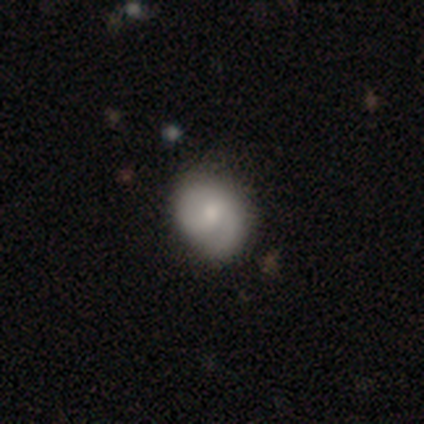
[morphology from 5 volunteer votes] smooth-or-featured: featured or disk: 80% | smooth: 20% | star or artifact: 0%
  disk-edge-on: no: 100% | yes: 0%
    bar: weak: 50% (tied) | no: 50% (tied) | strong: 0%
    has-spiral-arms: yes: 75% | no: 25%
      spiral-winding: tight: 67% | loose: 33% | medium: 0%
      spiral-arm-count: 2: 100% | 1: 0% | 3: 0% | 4: 0% | more than 4: 0% | can't tell: 0%
    bulge-size: moderate: 50% | large: 25% | small: 25% | dominant: 0% | none: 0%
  merging: none: 80% | major disturbance: 20% | minor disturbance: 0% | merger: 0%